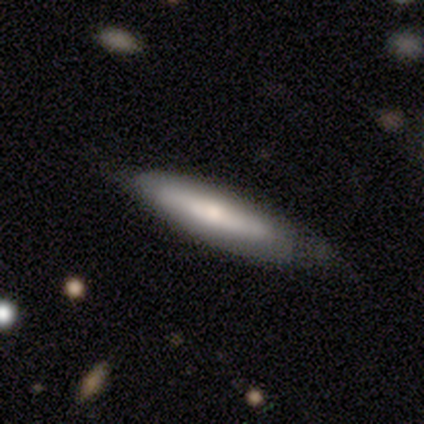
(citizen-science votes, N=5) Smooth or featured? smooth (60%)
How rounded? in between (67%)
Merging? none (60%)